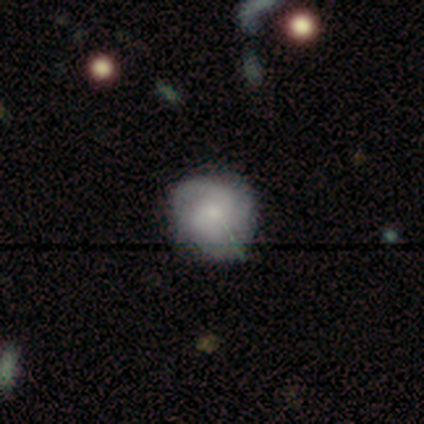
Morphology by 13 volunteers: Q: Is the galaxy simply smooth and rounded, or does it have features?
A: featured or disk — 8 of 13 (62%).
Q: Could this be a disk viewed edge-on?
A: no — 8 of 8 (100%).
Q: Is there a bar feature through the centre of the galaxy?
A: no — 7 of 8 (88%).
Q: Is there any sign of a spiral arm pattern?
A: yes — 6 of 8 (75%).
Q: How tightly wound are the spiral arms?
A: tight — 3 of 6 (50%, tied with loose).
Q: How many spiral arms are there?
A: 2 — 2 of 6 (33%, tied with 3).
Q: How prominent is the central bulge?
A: small — 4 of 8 (50%).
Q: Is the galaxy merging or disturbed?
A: none — 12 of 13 (92%).